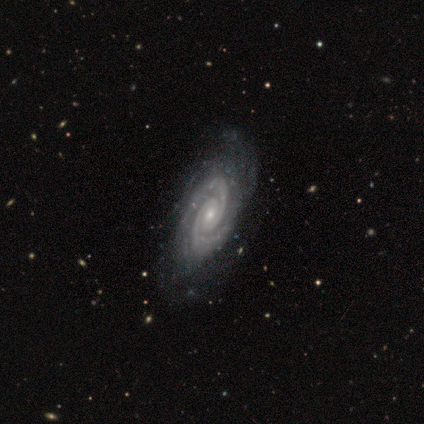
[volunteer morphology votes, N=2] Smooth or featured: featured or disk — 100%
Edge-on disk: no — 100%
Bar: strong — 50% (tied with no — 50%)
Spiral arms: yes — 100%
Spiral winding: tight — 50% (tied with medium — 50%)
Spiral arm count: 2 — 100%
Bulge size: moderate — 50% (tied with small — 50%)
Merging: none — 100%